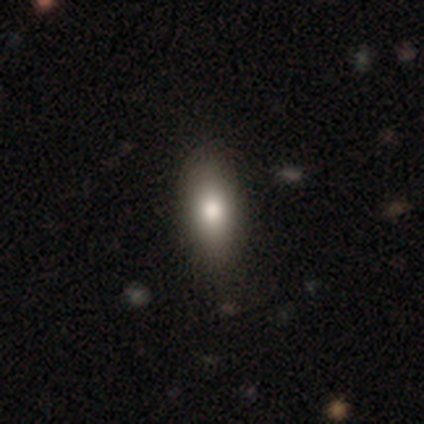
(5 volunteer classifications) A smooth galaxy with no disk features (100%) that is in between round and cigar-shaped (80%). Merging: none (100%).